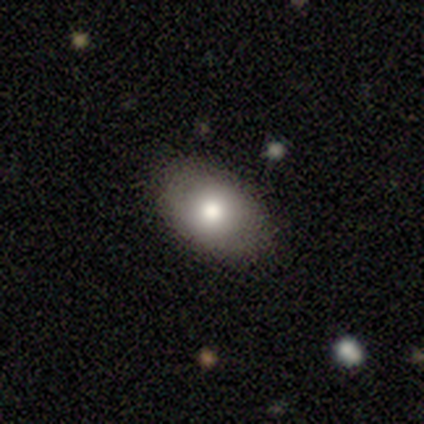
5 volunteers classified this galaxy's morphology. type=smooth (80%); roundness=in between (100%); merging=none (100%).